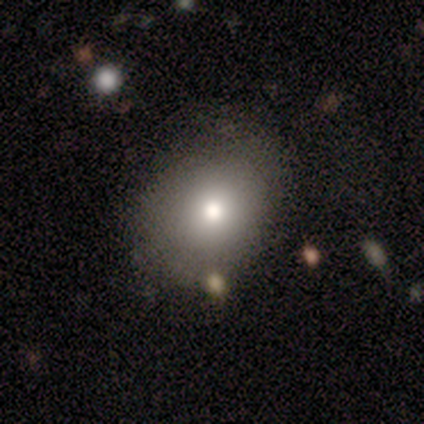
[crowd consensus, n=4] This appears to be a smooth galaxy with no disk features (100%) that is round (75%). Merging: none (50%).